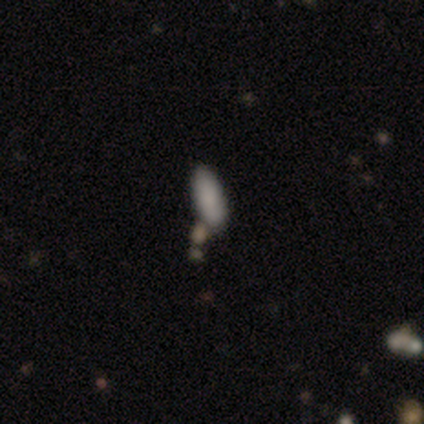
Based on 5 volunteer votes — This appears to be a smooth galaxy with no disk features (80%) that is in between round and cigar-shaped (75%). Merging: none (60%).